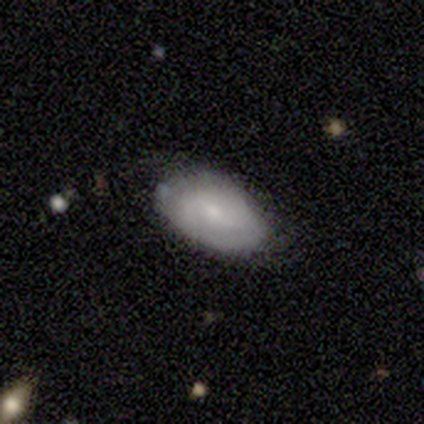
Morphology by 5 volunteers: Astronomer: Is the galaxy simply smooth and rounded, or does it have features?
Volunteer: featured or disk — 60% (runner-up: smooth, 40%).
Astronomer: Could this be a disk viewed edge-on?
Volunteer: no — 100%.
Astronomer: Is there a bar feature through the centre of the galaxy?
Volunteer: weak — 67%.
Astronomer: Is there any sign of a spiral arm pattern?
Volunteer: yes — 100%.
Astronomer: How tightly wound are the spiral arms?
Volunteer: tight — 33%, tied with medium and loose at 33%.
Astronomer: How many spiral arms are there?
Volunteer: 2 — 100%.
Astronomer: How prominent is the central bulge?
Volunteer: small — 67%.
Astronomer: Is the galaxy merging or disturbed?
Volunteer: none — 60% (runner-up: minor disturbance, 40%).